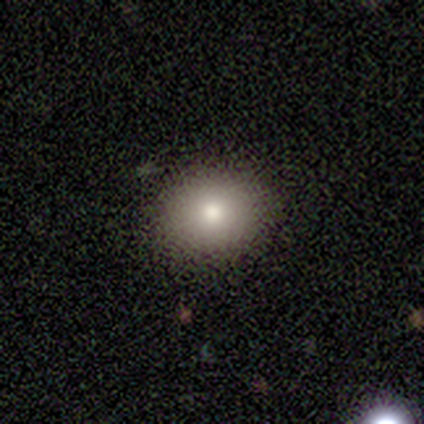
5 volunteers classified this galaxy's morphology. Overall: smooth (80%). How rounded: round (75%). Merging: none (100%).